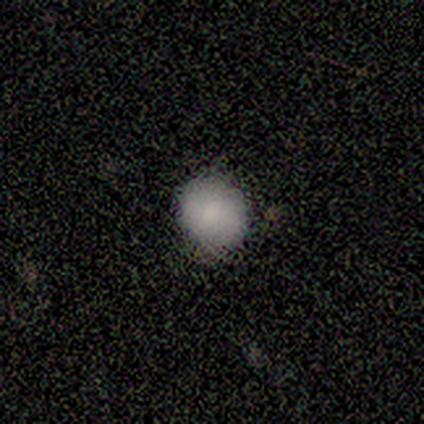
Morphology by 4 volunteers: Q: Smooth or featured?
A: smooth (100%)
Q: How rounded?
A: round (100%)
Q: Merging?
A: none (75%); runner-up: minor disturbance (25%)